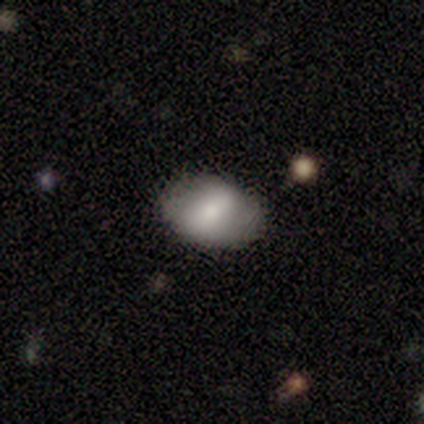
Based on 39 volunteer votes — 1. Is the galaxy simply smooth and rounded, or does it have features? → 56% smooth, 33% featured or disk, 10% star or artifact.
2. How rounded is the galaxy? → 86% in between, 14% round, 0% cigar-shaped.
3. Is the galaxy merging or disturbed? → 86% none, 14% minor disturbance, 0% major disturbance, 0% merger.